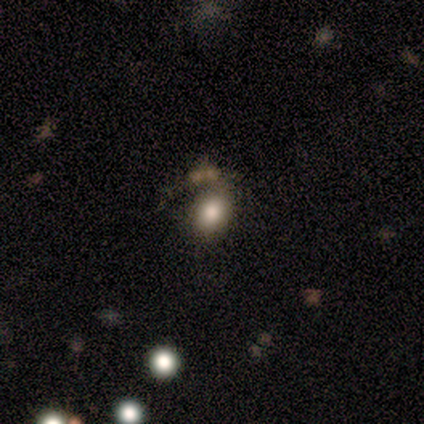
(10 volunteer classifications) A smooth galaxy with no disk features (50%) that is round (60%). Merging: minor disturbance (38%, tied with major disturbance).